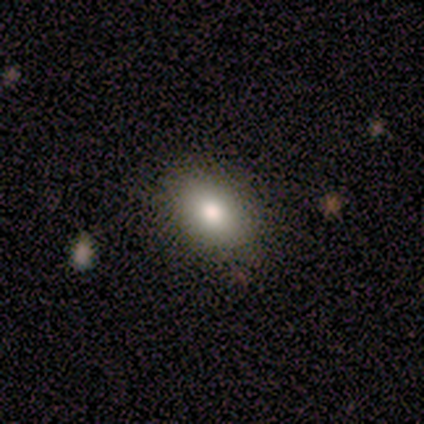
A smooth galaxy with no disk features (75%) that is in between round and cigar-shaped (100%). Merging: none (33%, tied with minor disturbance and major disturbance).